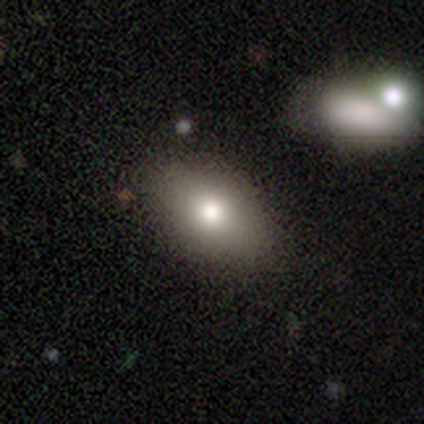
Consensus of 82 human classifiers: Volunteers were most divided on "merging": none: 75%, minor disturbance: 18%, merger: 4%, major disturbance: 3%. More confident: how rounded — in between (86%); smooth or featured — smooth (80%).